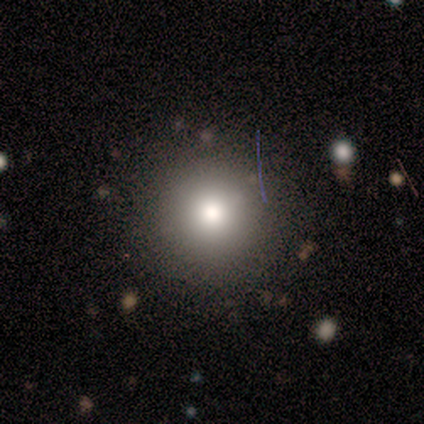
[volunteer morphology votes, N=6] Overall: smooth (100%). How rounded: round (100%). Merging: none (83%).